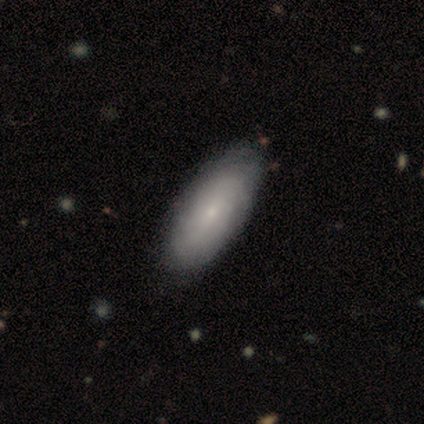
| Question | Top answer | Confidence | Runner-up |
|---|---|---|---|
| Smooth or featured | smooth | 48% | tied: featured or disk (48%) |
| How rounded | in between | 100% | — |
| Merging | none | 61% | minor disturbance (16%) |